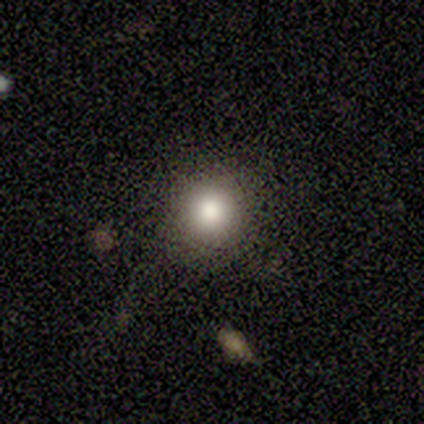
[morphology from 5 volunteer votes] smooth-or-featured: smooth: 100% | featured or disk: 0% | star or artifact: 0%
  how-rounded: round: 80% | in between: 20% | cigar-shaped: 0%
  merging: none: 100% | minor disturbance: 0% | major disturbance: 0% | merger: 0%